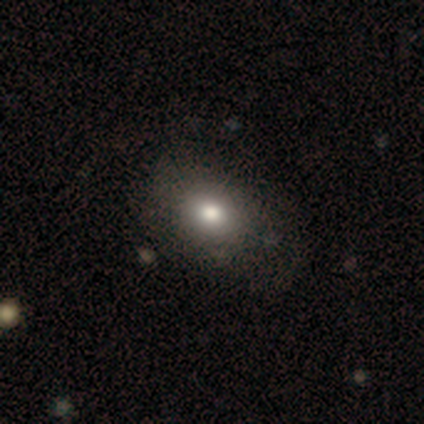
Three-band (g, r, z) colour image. It shows a smooth galaxy with no disk features (85%) that is round (52%). Merging: none (67%).